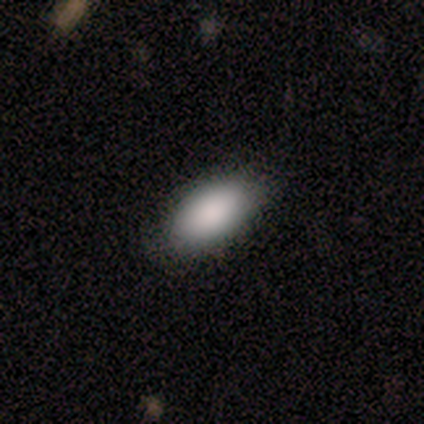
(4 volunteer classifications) This appears to be a smooth galaxy with no disk features (100%) that is in between round and cigar-shaped (100%). Merging: none (100%).